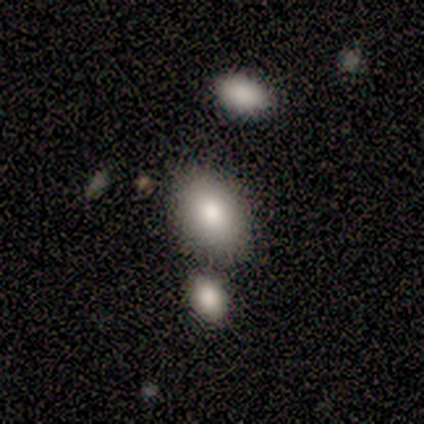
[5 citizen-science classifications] Smooth or featured?
  - smooth: 80% *
  - featured or disk: 20%
  - star or artifact: 0%
How rounded?
  - in between: 75% *
  - round: 25%
  - cigar-shaped: 0%
Merging?
  - none: 40% * (tied)
  - minor disturbance: 40% * (tied)
  - merger: 20%
  - major disturbance: 0%